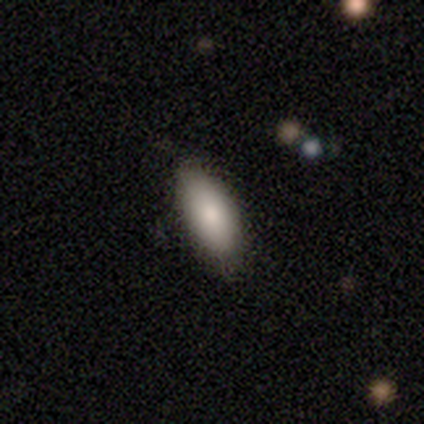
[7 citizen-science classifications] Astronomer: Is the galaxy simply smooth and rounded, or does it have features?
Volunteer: smooth — 71%.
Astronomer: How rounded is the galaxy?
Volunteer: in between — 80%.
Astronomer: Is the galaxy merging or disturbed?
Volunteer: none — 100%.